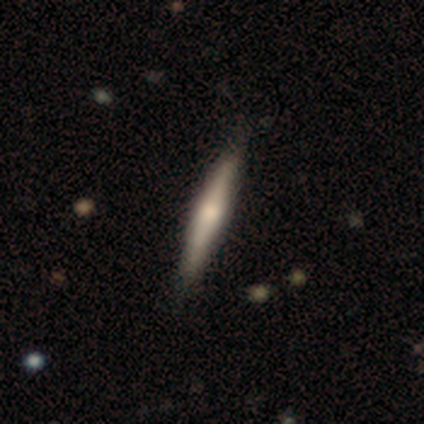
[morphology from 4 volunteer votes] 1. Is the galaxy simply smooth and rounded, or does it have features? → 50% smooth (tied), 50% featured or disk (tied), 0% star or artifact.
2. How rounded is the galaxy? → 100% cigar-shaped, 0% round, 0% in between.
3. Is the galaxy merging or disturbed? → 75% none, 25% major disturbance, 0% minor disturbance, 0% merger.